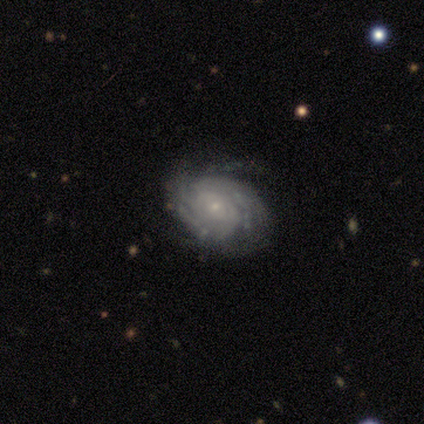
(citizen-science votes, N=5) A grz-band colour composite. It shows a featured or disk galaxy (100%) with no bar (80%), more than 4 (40%, tied with can't tell) tight (60%) spiral arms (100%) and a small central bulge (100%). Merging: minor disturbance (60%).